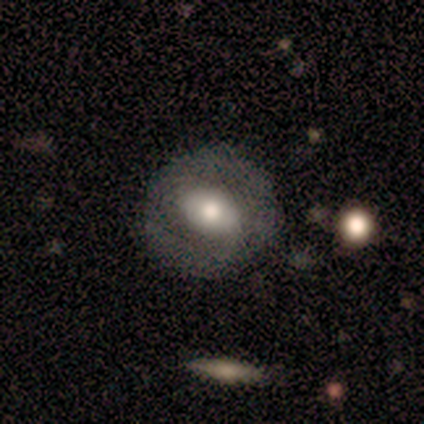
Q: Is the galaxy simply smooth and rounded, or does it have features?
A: smooth — 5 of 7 (71%).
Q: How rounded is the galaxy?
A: round — 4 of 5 (80%).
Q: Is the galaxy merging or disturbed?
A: none — 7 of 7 (100%).